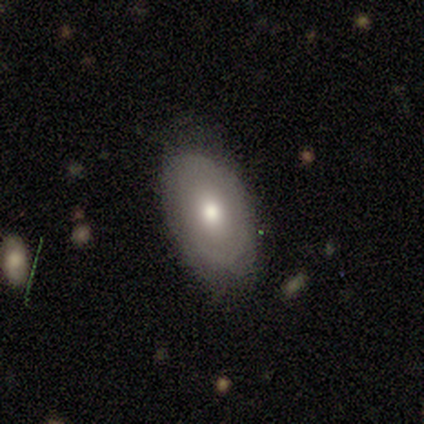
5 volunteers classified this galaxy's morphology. Smooth or featured: smooth — 100%
How rounded: in between — 100%
Merging: none — 100%